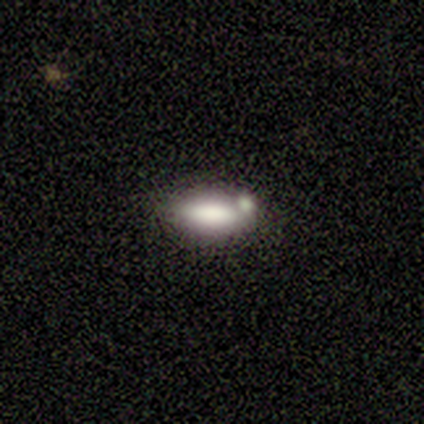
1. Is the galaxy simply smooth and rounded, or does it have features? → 60% smooth, 20% featured or disk, 20% star or artifact.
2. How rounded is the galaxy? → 67% cigar-shaped, 33% in between, 0% round.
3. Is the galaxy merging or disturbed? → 50% none (tied), 50% minor disturbance (tied), 0% major disturbance, 0% merger.